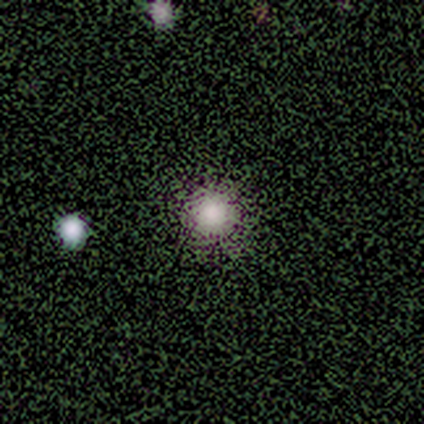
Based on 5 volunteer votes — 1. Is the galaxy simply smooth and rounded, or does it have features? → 60% smooth, 40% star or artifact, 0% featured or disk.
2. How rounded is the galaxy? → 100% round, 0% in between, 0% cigar-shaped.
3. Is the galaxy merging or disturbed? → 100% none, 0% minor disturbance, 0% major disturbance, 0% merger.